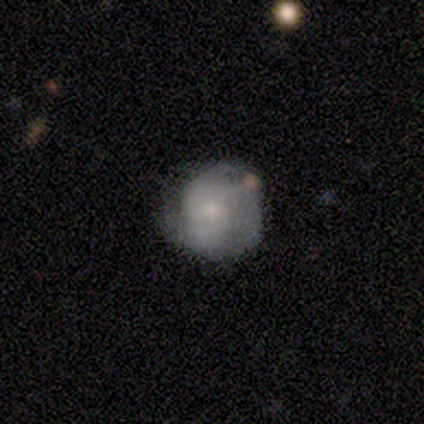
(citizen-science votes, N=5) smooth-or-featured: smooth: 60% | featured or disk: 40% | star or artifact: 0%
  how-rounded: round: 100% | in between: 0% | cigar-shaped: 0%
  merging: none: 60% | minor disturbance: 40% | major disturbance: 0% | merger: 0%